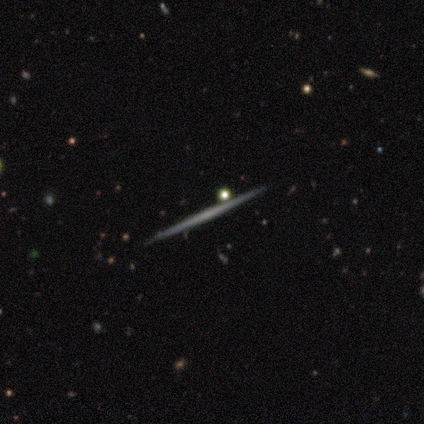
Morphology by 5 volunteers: Overall: featured or disk (40%, tied with star or artifact). Edge-on disk: yes (100%). Edge-on bulge: none (100%). Merging: none (100%).